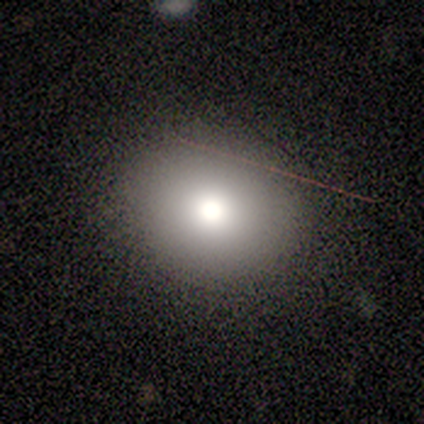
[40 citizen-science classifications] smooth 68%, star or artifact 22%, featured or disk 10%. Down the decision tree: how rounded — round (74%); merging — none (94%).